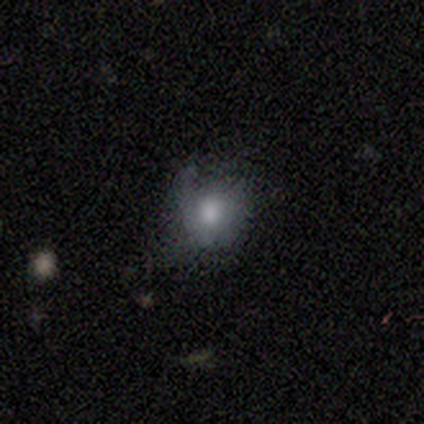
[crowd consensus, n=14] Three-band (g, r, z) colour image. It shows a smooth galaxy with no disk features (79%) that is round (64%). Merging: none (50%).